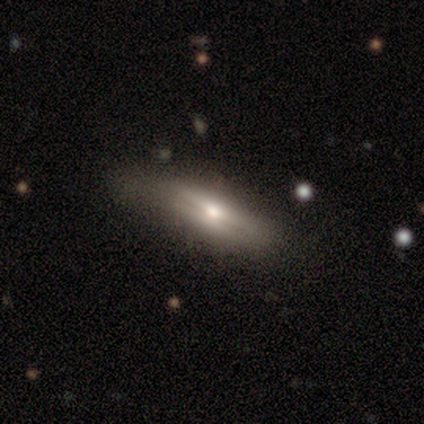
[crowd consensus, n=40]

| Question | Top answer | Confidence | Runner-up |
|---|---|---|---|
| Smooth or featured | featured or disk | 50% | smooth (45%) |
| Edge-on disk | yes | 90% | no (10%) |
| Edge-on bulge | rounded | 83% | none (11%) |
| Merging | none | 76% | minor disturbance (21%) |